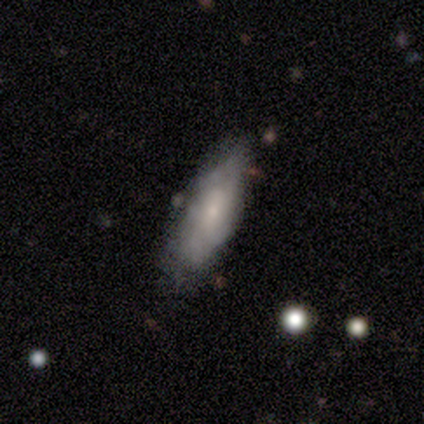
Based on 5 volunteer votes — Smooth or featured? 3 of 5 (60%) said featured or disk. Edge-on disk? 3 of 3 (100%) said no. Bar? 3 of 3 (100%) said weak. Spiral arms? 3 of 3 (100%) said yes. Spiral winding? 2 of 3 (67%) said tight. Spiral arm count? 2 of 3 (67%) said can't tell. Bulge size? 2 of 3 (67%) said moderate. Merging? 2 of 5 (40%, tied with minor disturbance) said none.